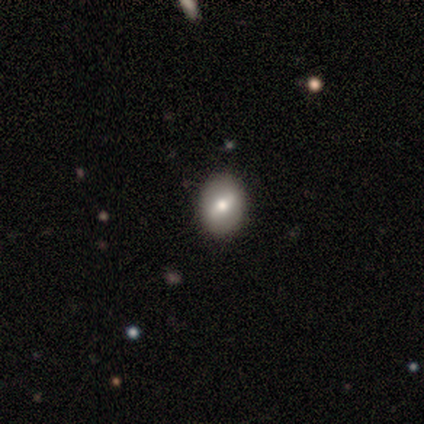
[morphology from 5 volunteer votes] smooth_or_featured: smooth (p=0.60) [alt: featured or disk p=0.40]
how_rounded: in between (p=0.67) [alt: round p=0.33]
merging: none (p=1.00)